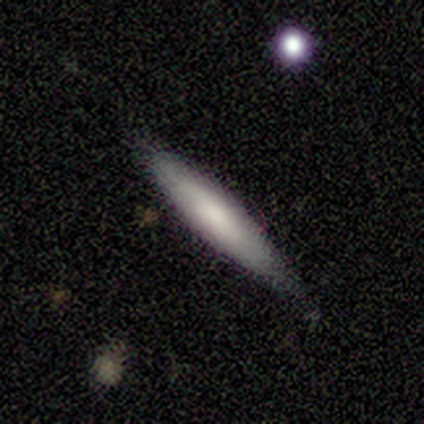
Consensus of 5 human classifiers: This appears to be a smooth galaxy with no disk features (80%) that is cigar-shaped (100%). Merging: none (80%).